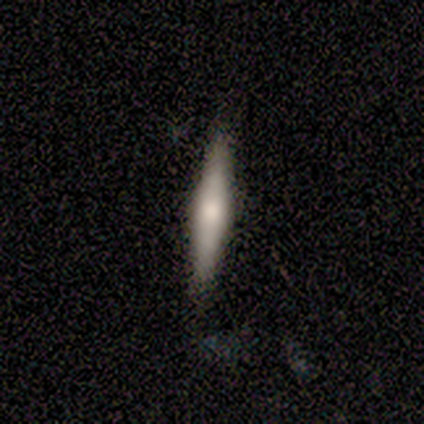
Smooth or featured? featured or disk (60%)
Edge-on disk? yes (100%)
Edge-on bulge? rounded (100%)
Merging? none (80%)